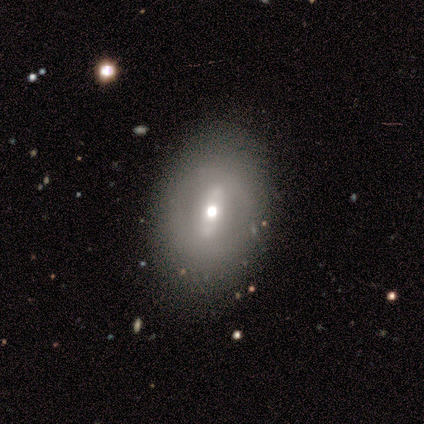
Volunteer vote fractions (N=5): Smooth or featured?
  - featured or disk: 60% *
  - smooth: 20%
  - star or artifact: 20%
Edge-on disk?
  - no: 100% *
  - yes: 0%
Bar?
  - strong: 100% *
  - weak: 0%
  - no: 0%
Spiral arms?
  - no: 100% *
  - yes: 0%
Bulge size?
  - small: 67% *
  - moderate: 33%
  - dominant: 0%
  - large: 0%
  - none: 0%
Merging?
  - none: 50% *
  - minor disturbance: 25%
  - major disturbance: 25%
  - merger: 0%